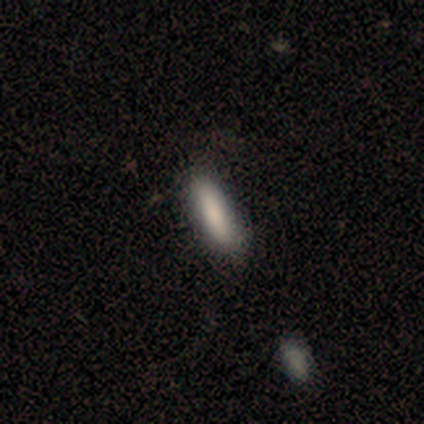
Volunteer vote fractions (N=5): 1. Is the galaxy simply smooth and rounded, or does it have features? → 80% smooth, 20% star or artifact, 0% featured or disk.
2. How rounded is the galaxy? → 50% in between (tied), 50% cigar-shaped (tied), 0% round.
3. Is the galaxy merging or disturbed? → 75% none, 25% minor disturbance, 0% major disturbance, 0% merger.